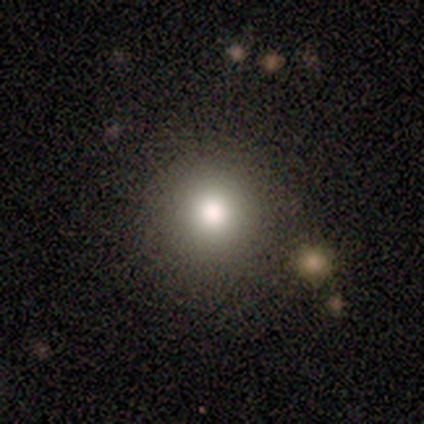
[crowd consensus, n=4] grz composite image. It shows a smooth galaxy with no disk features (75%) that is round (100%). Merging: none (100%).